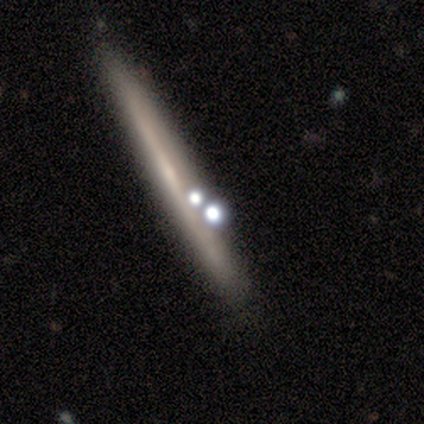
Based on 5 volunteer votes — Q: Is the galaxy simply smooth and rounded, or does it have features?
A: featured or disk — 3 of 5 (60%).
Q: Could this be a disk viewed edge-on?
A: yes — 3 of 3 (100%).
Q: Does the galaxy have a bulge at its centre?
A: none — 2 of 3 (67%).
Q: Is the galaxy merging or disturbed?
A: none — 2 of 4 (50%, tied with minor disturbance).